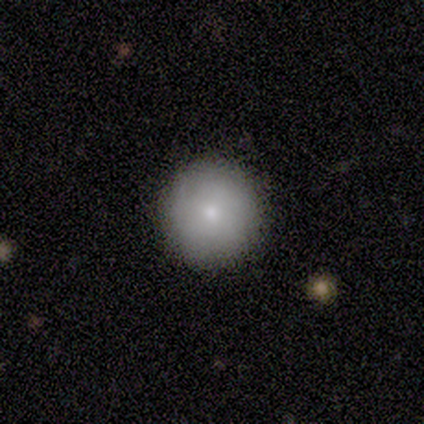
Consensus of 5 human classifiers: smooth 100%, featured or disk 0%, star or artifact 0%. Down the decision tree: how rounded — round (80%); merging — none (60%).